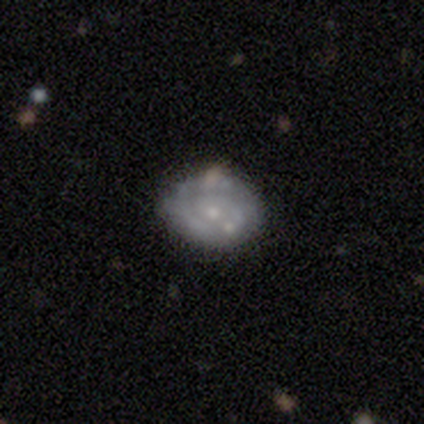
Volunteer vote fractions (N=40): featured or disk 68%, smooth 30%, star or artifact 2%. Down the decision tree: edge-on disk — no (100%); bar — no (85%); spiral arms — yes (63%); spiral arm count — 1 (41%); spiral winding — tight (71%); bulge size — small (63%); merging — none (56%).